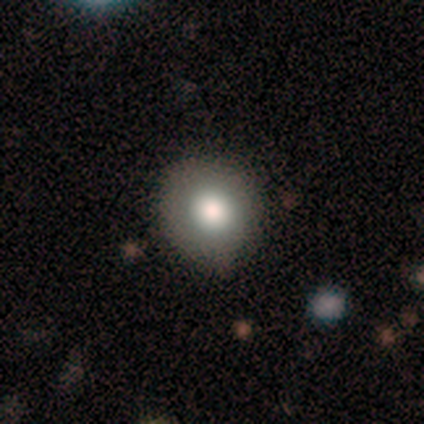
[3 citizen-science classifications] A smooth galaxy with no disk features (100%) that is round (67%).

Vote fractions:
- Smooth or featured? smooth: 100% / featured or disk: 0% / star or artifact: 0%
- How rounded? round: 67% / in between: 33% / cigar-shaped: 0%
- Merging? none: 100% / minor disturbance: 0% / major disturbance: 0% / merger: 0%